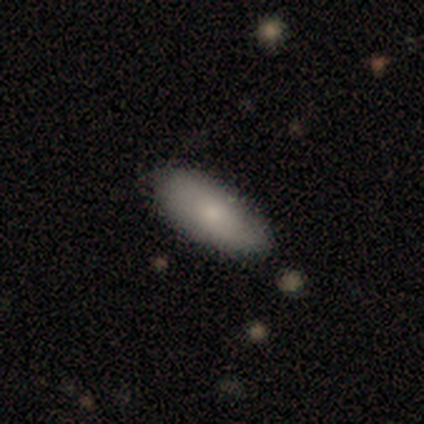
This is likely a smooth galaxy (60%). How rounded: clearly in between (100%). Merging: likely none (60%).